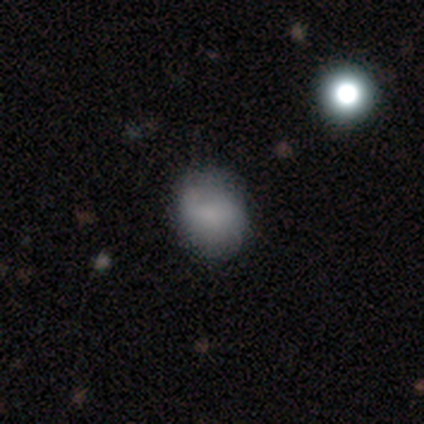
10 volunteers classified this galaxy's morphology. type=smooth (80%); roundness=round (50%, tied with in between); merging=none (60%).